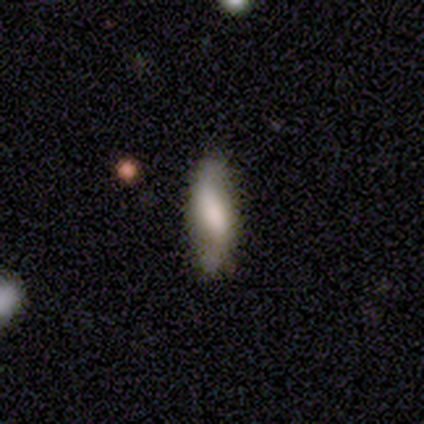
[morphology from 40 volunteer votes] This is likely a smooth galaxy (60%). How rounded: possibly in between (58%). Merging: likely none (63%).